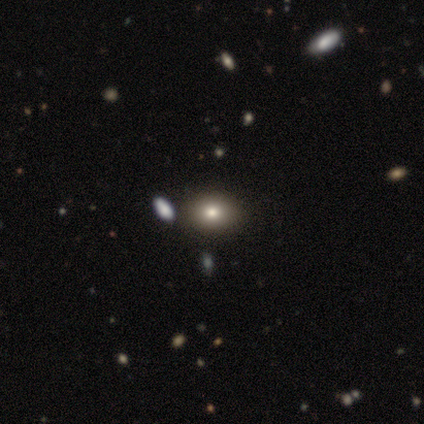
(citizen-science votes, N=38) Smooth or featured?
  - smooth: 89% *
  - star or artifact: 11%
  - featured or disk: 0%
How rounded?
  - round: 50% *
  - in between: 47%
  - cigar-shaped: 3%
Merging?
  - none: 79% *
  - minor disturbance: 9%
  - merger: 9%
  - major disturbance: 3%